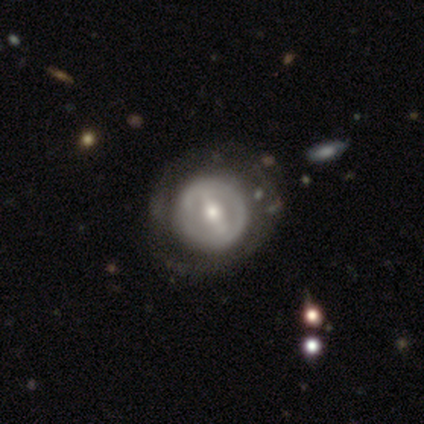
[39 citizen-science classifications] Smooth or featured? 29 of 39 (74%) said featured or disk. Edge-on disk? 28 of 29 (97%) said no. Bar? 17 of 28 (61%) said strong. Spiral arms? 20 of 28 (71%) said no. Bulge size? 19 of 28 (68%) said moderate. Merging? 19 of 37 (51%) said none.